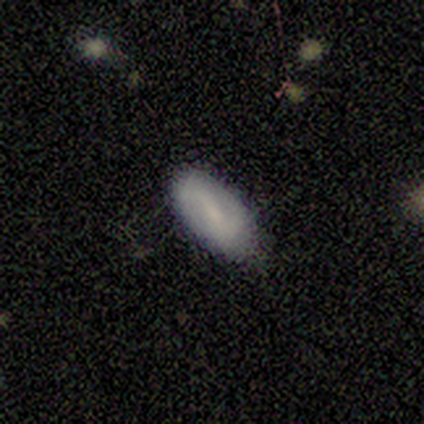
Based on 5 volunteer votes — A smooth galaxy with no disk features (60%) that is in between round and cigar-shaped (67%). Merging: none (100%).